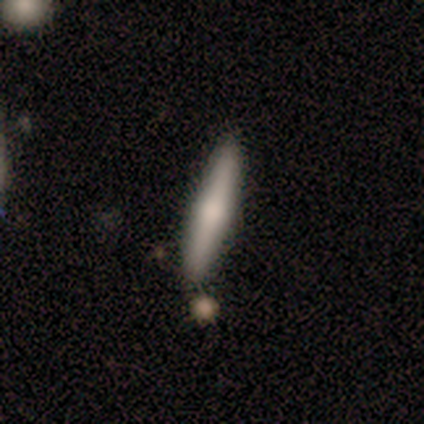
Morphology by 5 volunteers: smooth_or_featured: smooth (p=0.80) [alt: featured or disk p=0.20]
how_rounded: cigar-shaped (p=0.75) [alt: in between p=0.25]
merging: none (p=1.00)